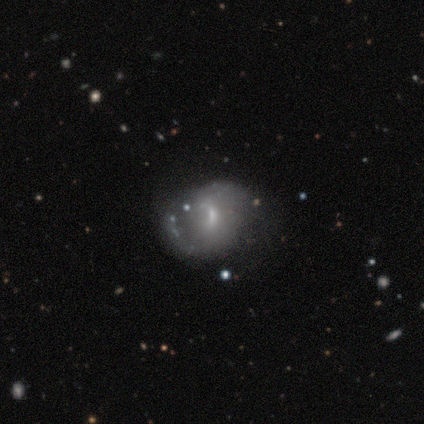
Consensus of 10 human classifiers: Volunteers were most divided on "spiral arms" (2-way tie): yes: 50%, no: 50%; "bulge size" (3-way tie): moderate: 33%, small: 33%, none: 33%, dominant: 0%, large: 0%. More confident: edge-on disk — no (100%); bar — weak (67%); spiral winding — loose (67%); spiral arm count — 2 (67%); smooth or featured — featured or disk (60%); merging — minor disturbance (50%).